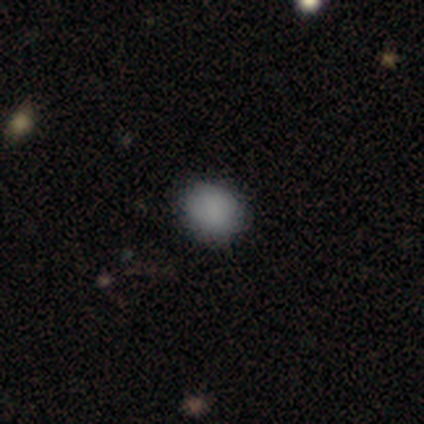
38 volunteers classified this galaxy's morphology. This appears to be a smooth galaxy with no disk features (84%) that is round (56%). Merging: none (83%).